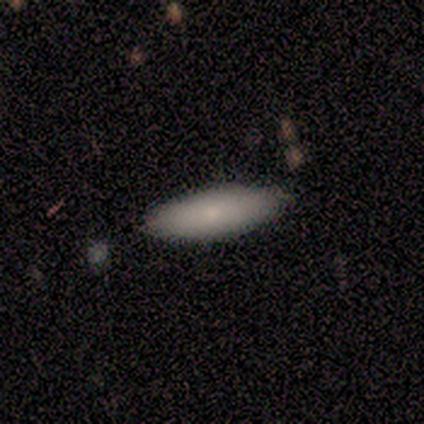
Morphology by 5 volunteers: Smooth or featured? smooth (80%)
How rounded? in between (50%, tied with cigar-shaped)
Merging? none (100%)